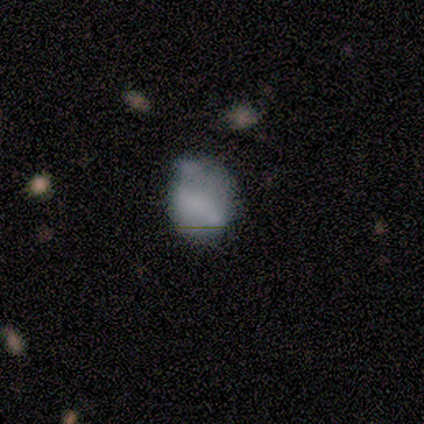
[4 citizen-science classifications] This is likely a smooth galaxy (75%). How rounded: likely in between (67%). Merging: marginally none (33%, tied with minor disturbance and major disturbance).